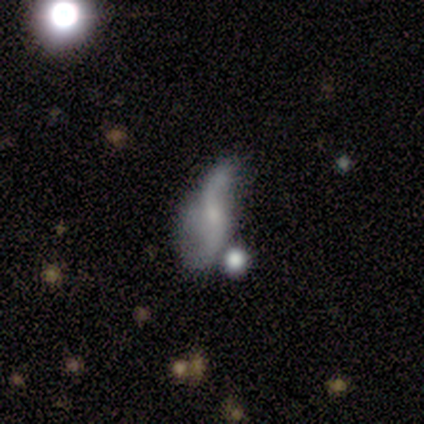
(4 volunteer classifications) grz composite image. It shows a featured or disk galaxy (75%) with a weak bar (67%), 2 (100%) loose (100%) spiral arms (100%) and a small central bulge (67%). Merging: major disturbance (50%).